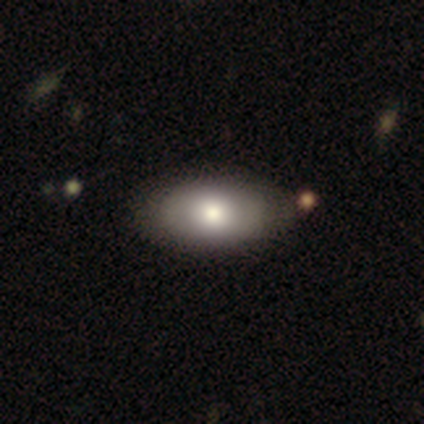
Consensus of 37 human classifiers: Overall: smooth (68%; featured or disk 30%). How rounded: in between (96%). Merging: none (53%).